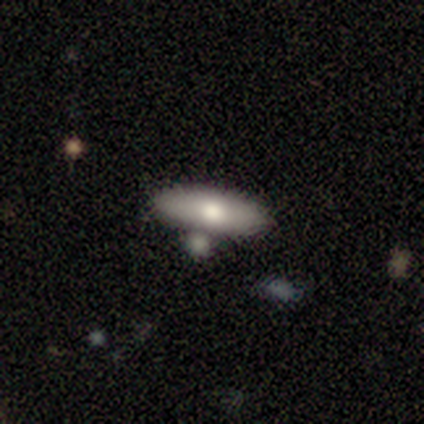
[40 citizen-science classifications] A smooth galaxy with no disk features (70%) that is in between round and cigar-shaped (64%). Merging: none (70%).